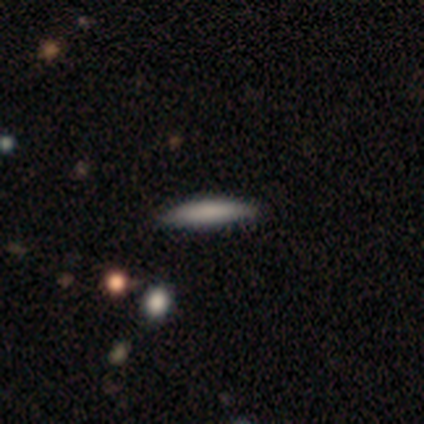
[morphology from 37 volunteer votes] This appears to be a smooth galaxy with no disk features (86%) that is cigar-shaped (94%). Merging: none (84%).